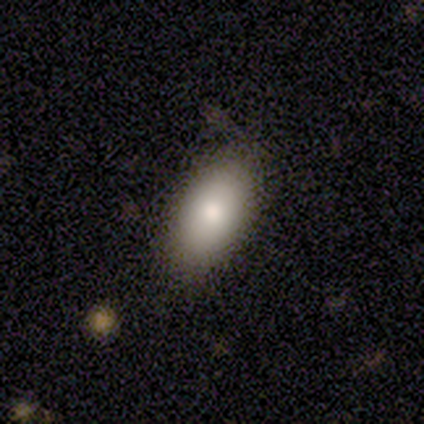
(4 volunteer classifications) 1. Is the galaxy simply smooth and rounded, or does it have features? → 75% smooth, 25% featured or disk, 0% star or artifact.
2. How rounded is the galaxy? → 100% in between, 0% round, 0% cigar-shaped.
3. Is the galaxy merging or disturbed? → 75% none, 25% minor disturbance, 0% major disturbance, 0% merger.